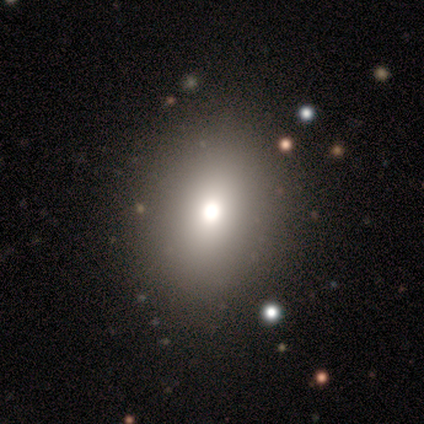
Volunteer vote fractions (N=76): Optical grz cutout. It shows a smooth galaxy with no disk features (71%) that is in between round and cigar-shaped (59%). Merging: none (43%).